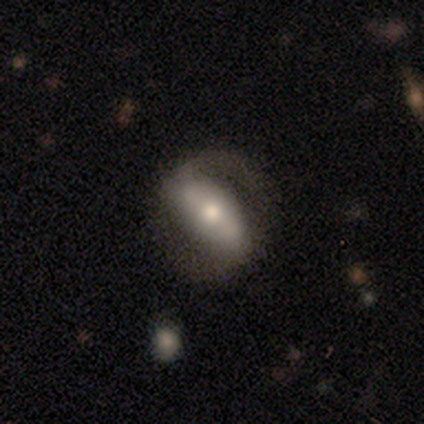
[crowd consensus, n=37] Volunteers were most divided on "bar": strong: 55%, weak: 40%, no: 5%. More confident: edge-on disk — no (91%); spiral arms — yes (90%); spiral arm count — 2 (89%); bulge size — moderate (60%); smooth or featured — featured or disk (59%); spiral winding — loose (56%); merging — none (56%).